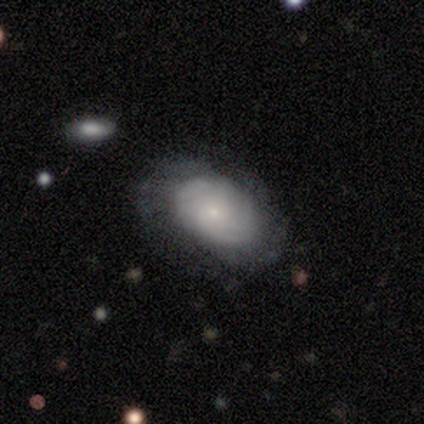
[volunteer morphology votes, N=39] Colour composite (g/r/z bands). It shows a featured or disk galaxy (67%) with no bar (84%), tight (71%) spiral arms (96%) and a small central bulge (80%). Merging: none (74%).